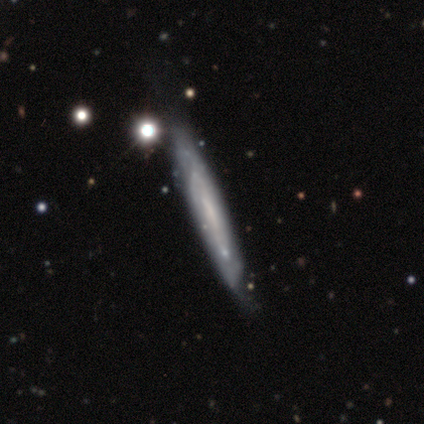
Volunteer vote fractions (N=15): Morphology: type=featured or disk (93%); edge-on=yes (57%); edge-on bulge=none (88%); merging=none (53%).